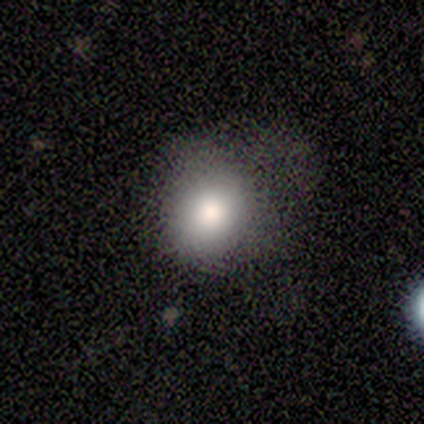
A smooth galaxy with no disk features (100%) that is round (67%). Merging: minor disturbance (67%).